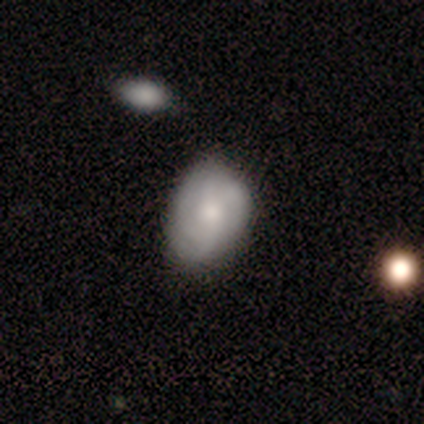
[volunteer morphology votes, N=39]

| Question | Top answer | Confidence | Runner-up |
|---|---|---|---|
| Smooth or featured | featured or disk | 56% | smooth (36%) |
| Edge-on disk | no | 100% | — |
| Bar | no | 68% | weak (32%) |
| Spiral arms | yes | 91% | no (9%) |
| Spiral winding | tight | 50% | medium (30%) |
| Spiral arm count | can't tell | 45% | 3 (30%) |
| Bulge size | moderate | 59% | small (27%) |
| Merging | none | 39% | tied: minor disturbance (39%) |